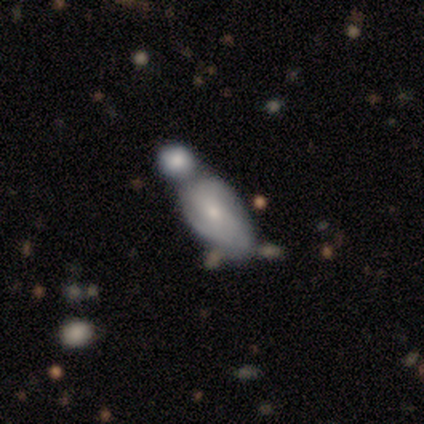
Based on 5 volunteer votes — Q: Smooth or featured?
A: featured or disk (60%); runner-up: smooth (40%)
Q: Edge-on disk?
A: no (100%)
Q: Bar?
A: no (67%); runner-up: weak (33%)
Q: Spiral arms?
A: no (67%); runner-up: yes (33%)
Q: Bulge size?
A: small (100%)
Q: Merging?
A: merger (60%); runner-up: none (20%)